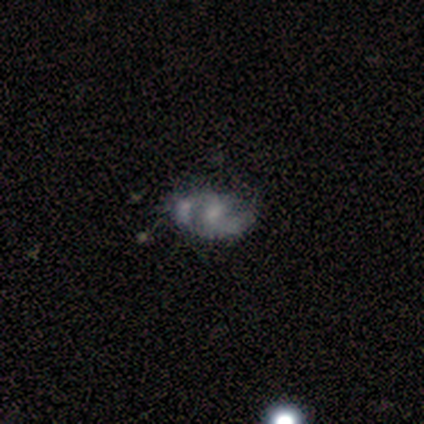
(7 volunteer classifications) Smooth or featured? 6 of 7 (86%) said featured or disk. Edge-on disk? 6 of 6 (100%) said no. Bar? 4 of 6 (67%) said no. Spiral arms? 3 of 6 (50%, tied with no) said yes. Spiral winding? 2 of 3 (67%) said loose. Spiral arm count? 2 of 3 (67%) said 1. Bulge size? 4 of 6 (67%) said small. Merging? 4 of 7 (57%) said none.